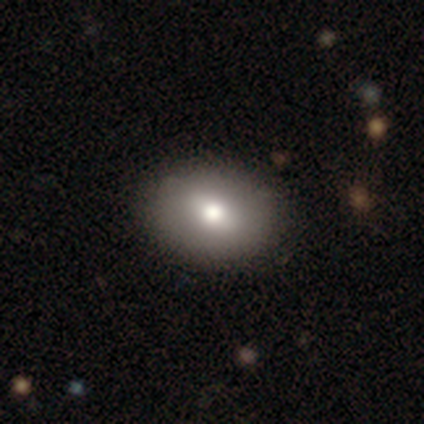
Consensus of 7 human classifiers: Volunteers were most divided on "how rounded": in between: 60%, round: 40%, cigar-shaped: 0%. More confident: merging — none (83%); smooth or featured — smooth (71%).